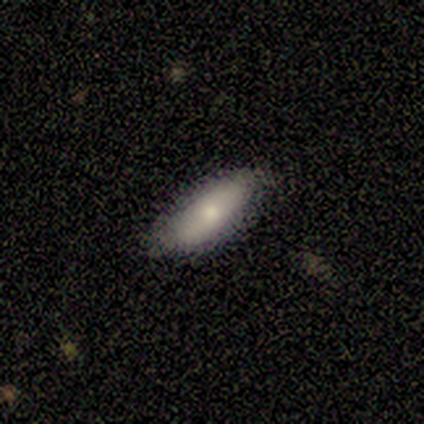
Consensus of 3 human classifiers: Smooth or featured? 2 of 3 (67%) said featured or disk. Edge-on disk? 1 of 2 (50%, tied with no) said yes. Edge-on bulge? 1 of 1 (100%) said none. Merging? 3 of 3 (100%) said none.